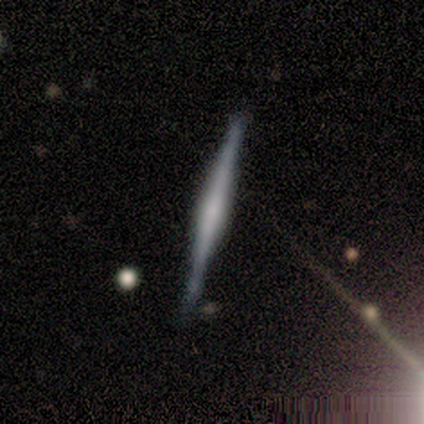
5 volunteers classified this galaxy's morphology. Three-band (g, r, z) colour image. It shows a featured or disk galaxy (80%) viewed edge-on (100%) with a boxy central bulge (50%). Merging: none (100%).